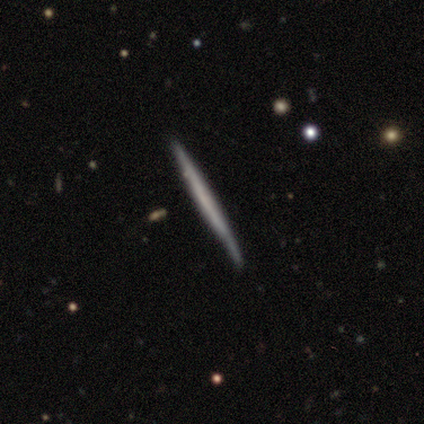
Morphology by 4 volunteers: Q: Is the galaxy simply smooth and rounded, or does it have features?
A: featured or disk — 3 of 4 (75%).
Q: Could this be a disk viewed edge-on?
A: yes — 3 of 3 (100%).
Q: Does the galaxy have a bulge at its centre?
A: none — 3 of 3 (100%).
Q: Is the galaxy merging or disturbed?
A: none — 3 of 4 (75%).